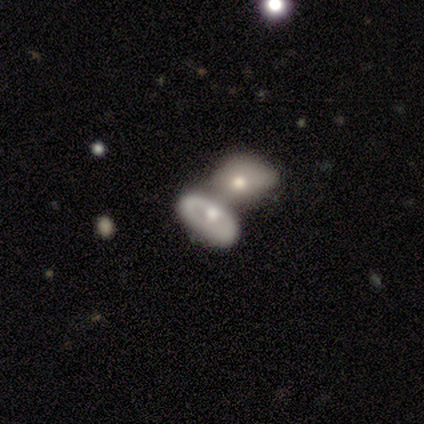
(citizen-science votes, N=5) featured or disk 80%, smooth 20%, star or artifact 0%. Down the decision tree: edge-on disk — no (100%); bar — no (100%); spiral arms — no (100%); bulge size — moderate (75%); merging — merger (80%).